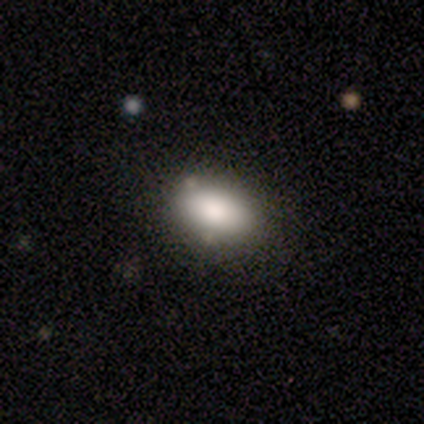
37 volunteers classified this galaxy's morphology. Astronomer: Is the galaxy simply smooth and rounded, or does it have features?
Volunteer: smooth — 86%.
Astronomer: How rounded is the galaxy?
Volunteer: in between — 100%.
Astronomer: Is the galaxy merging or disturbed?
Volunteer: none — 85%.